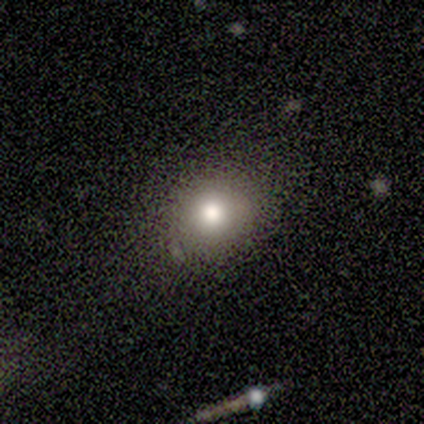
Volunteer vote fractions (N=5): A smooth galaxy with no disk features (60%) that is round (100%). Merging: none (67%).